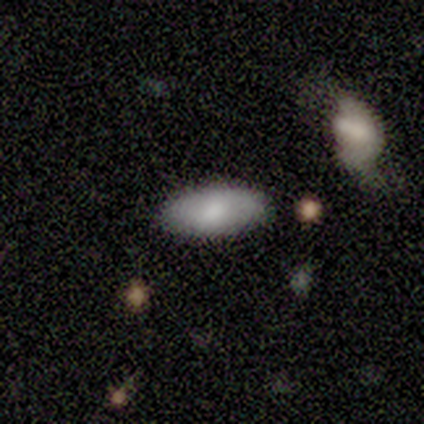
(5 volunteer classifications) Morphology: type=smooth (60%); roundness=in between (100%); merging=none (100%).